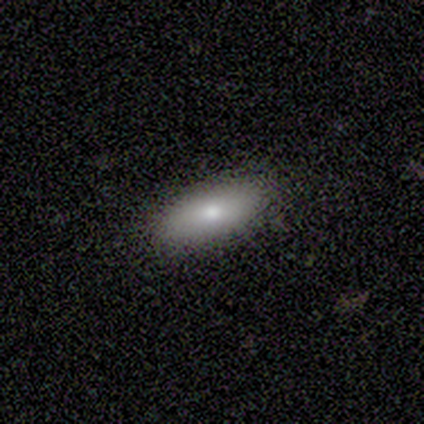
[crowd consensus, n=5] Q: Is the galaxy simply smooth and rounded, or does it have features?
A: smooth — 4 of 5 (80%).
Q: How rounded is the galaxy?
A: in between — 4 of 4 (100%).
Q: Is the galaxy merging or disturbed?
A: none — 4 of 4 (100%).